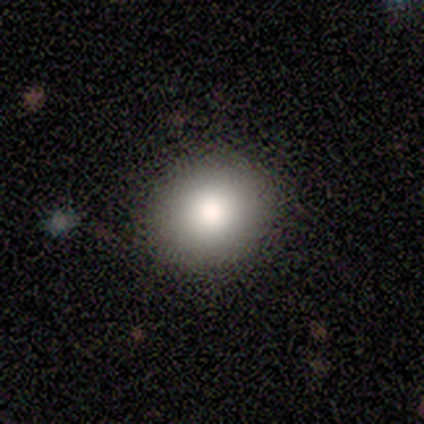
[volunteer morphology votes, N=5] This is clearly a smooth galaxy (100%). How rounded: likely round (60%). Merging: clearly none (100%).